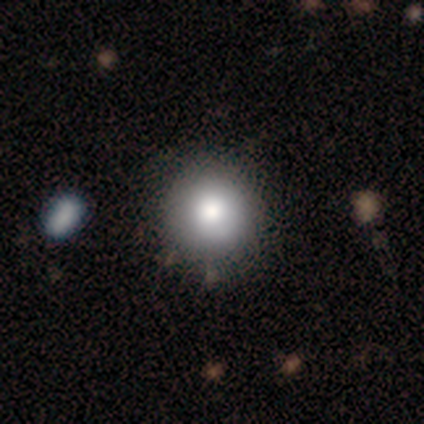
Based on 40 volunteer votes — Morphology: type=smooth (82%); roundness=round (94%); merging=none (69%).